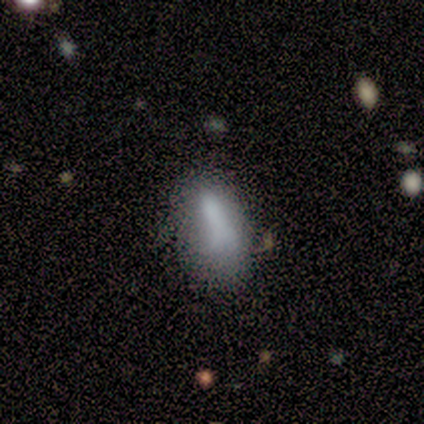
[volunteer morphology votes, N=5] Smooth or featured: smooth — 80% (featured or disk — 20%)
How rounded: in between — 100%
Merging: minor disturbance — 40% (none — 20%)